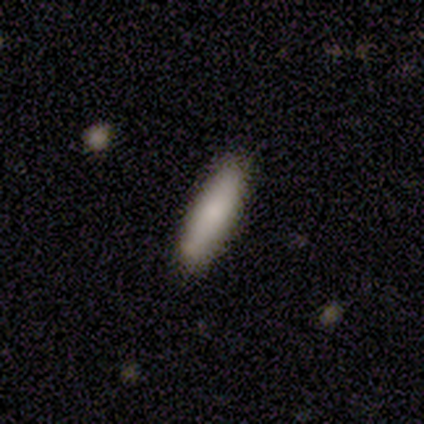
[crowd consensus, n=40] Smooth or featured? 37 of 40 (92%) said smooth. How rounded? 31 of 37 (84%) said cigar-shaped. Merging? 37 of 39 (95%) said none.